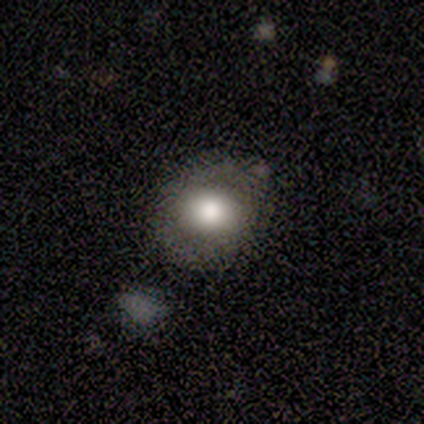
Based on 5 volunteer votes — A smooth galaxy with no disk features (100%) that is round (100%). Merging: none (80%).